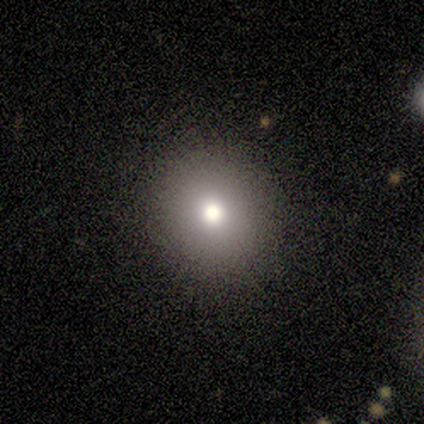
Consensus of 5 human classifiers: A smooth galaxy with no disk features (100%) that is round (100%). Merging: none (80%).